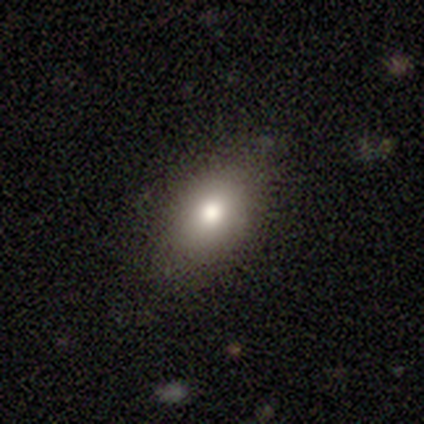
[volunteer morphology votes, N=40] Volunteers were most divided on "smooth or featured": smooth: 88%, featured or disk: 8%, star or artifact: 5%. More confident: merging — none (97%); how rounded — in between (91%).